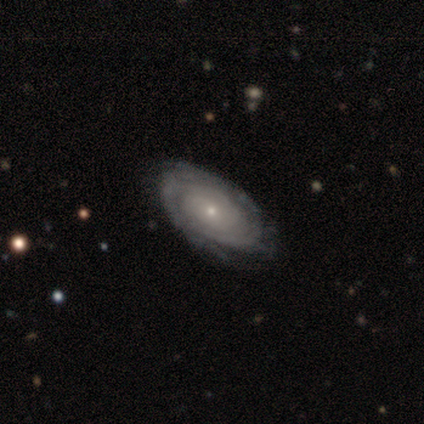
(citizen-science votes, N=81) This is clearly a featured or disk galaxy (91%). It is clearly not viewed edge-on (91%). Bar: clearly no (88%). Spiral arm pattern: clearly yes (94%). Spiral arm count: possibly can't tell (46%). Spiral winding: clearly tight (90%). Central bulge: clearly small (87%). Merging: marginally none (43%).